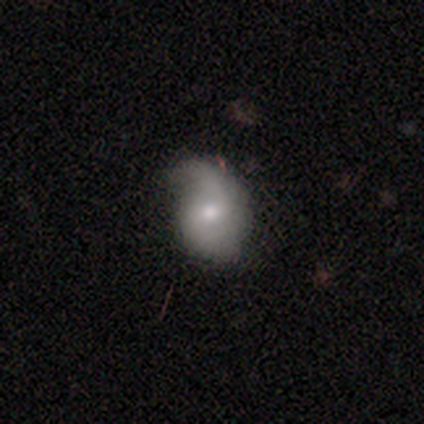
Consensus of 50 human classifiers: Q: Smooth or featured?
A: smooth (54%); runner-up: featured or disk (40%)
Q: How rounded?
A: in between (63%); runner-up: round (33%)
Q: Merging?
A: minor disturbance (45%); runner-up: none (36%)